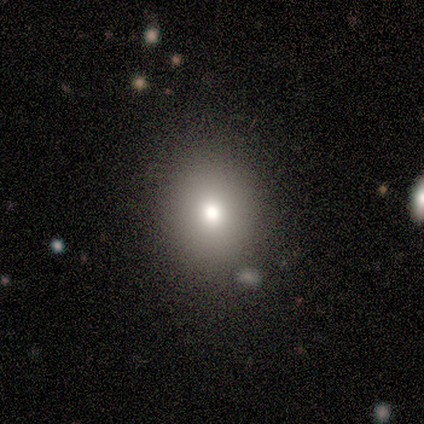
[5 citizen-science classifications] Morphology: type=smooth (80%); roundness=round (50%, tied with in between); merging=none (75%).